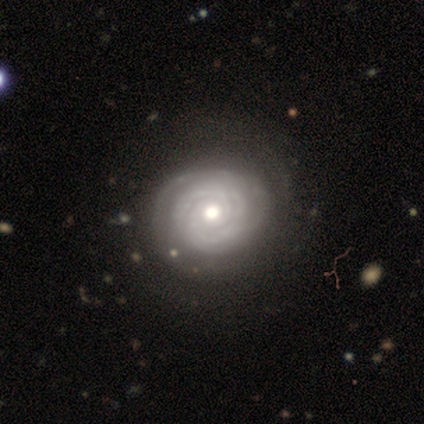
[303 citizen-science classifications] smooth-or-featured: featured or disk: 71% | smooth: 18% | star or artifact: 12%
  disk-edge-on: no: 93% | yes: 7%
    bar: no: 75% | weak: 22% | strong: 4%
    has-spiral-arms: yes: 92% | no: 8%
      spiral-winding: tight: 76% | medium: 20% | loose: 4%
      spiral-arm-count: can't tell: 35% | 2: 29% | 3: 23% | 4: 8% | more than 4: 4% | 1: 1%
    bulge-size: moderate: 76% | small: 18% | large: 4% | dominant: 2% | none: 1%
  merging: none: 65% | minor disturbance: 9% | major disturbance: 5% | merger: 2%